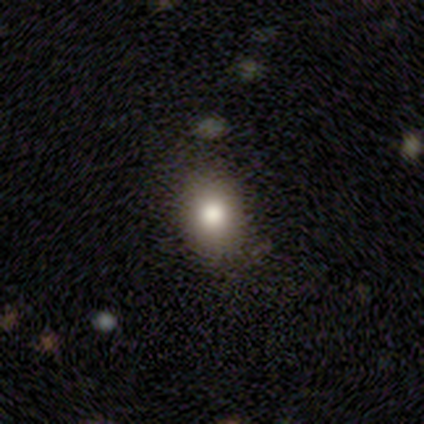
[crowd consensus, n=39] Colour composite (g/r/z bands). It shows a smooth galaxy with no disk features (74%) that is round (59%). Merging: none (85%).